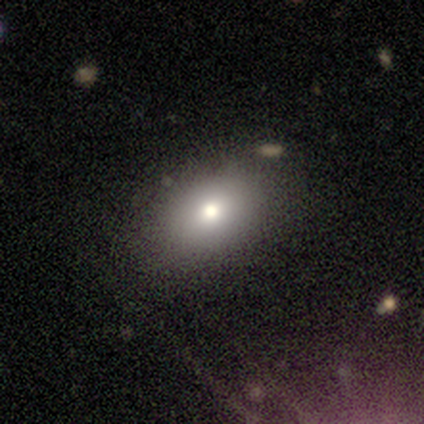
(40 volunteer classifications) Smooth or featured? smooth (80%)
How rounded? in between (84%)
Merging? none (87%)